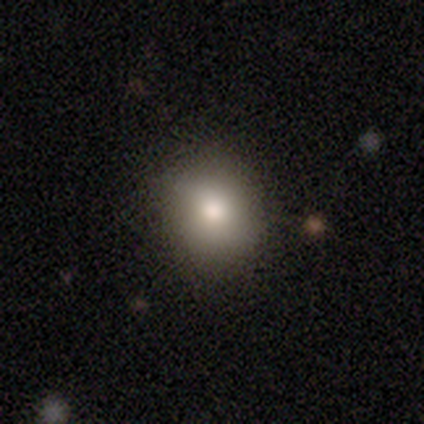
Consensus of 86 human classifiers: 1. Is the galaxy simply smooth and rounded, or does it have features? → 76% smooth, 17% star or artifact, 7% featured or disk.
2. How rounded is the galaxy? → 75% round, 25% in between, 0% cigar-shaped.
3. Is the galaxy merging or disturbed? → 87% none, 8% minor disturbance, 3% major disturbance, 1% merger.